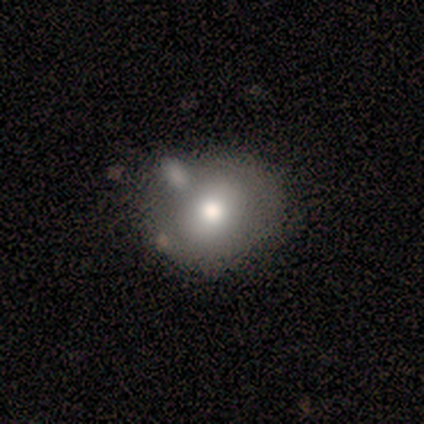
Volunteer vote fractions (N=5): A smooth galaxy with no disk features (80%) that is round (75%). Merging: minor disturbance (60%).